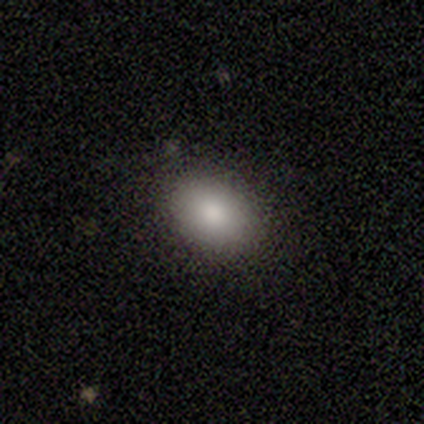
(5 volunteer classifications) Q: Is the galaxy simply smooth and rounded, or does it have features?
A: smooth — 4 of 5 (80%).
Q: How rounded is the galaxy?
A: round — 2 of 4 (50%, tied with in between).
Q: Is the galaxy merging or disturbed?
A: none — 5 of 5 (100%).